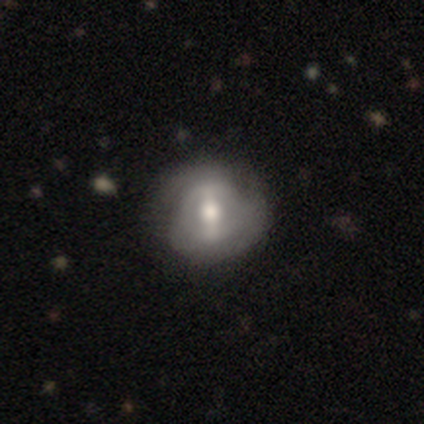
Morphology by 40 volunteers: smooth_or_featured: featured or disk (p=0.75) [alt: smooth p=0.25]
disk_edge_on: no (p=0.97) [alt: yes p=0.03]
bar: strong (p=0.59) [alt: weak p=0.31]
has_spiral_arms: no (p=0.55) [alt: yes p=0.45]
bulge_size: moderate (p=0.62) [alt: large p=0.24]
merging: none (p=0.70) [alt: minor disturbance p=0.23]